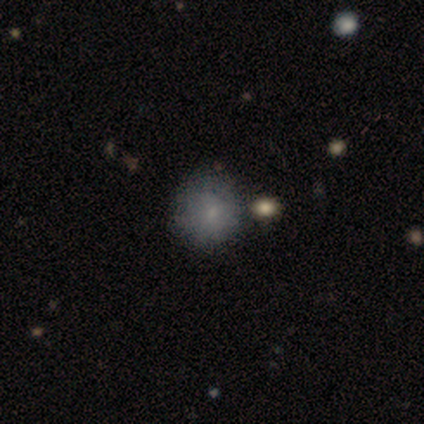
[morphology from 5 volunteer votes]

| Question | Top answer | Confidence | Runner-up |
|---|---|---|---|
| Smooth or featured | smooth | 100% | — |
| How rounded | round | 100% | — |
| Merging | none | 40% | minor disturbance (20%) |